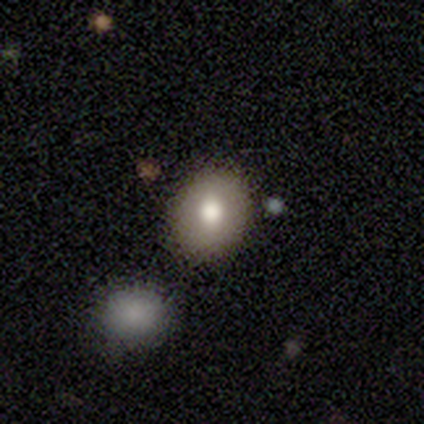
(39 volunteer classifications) This appears to be a smooth galaxy with no disk features (54%) that is round (67%). Merging: none (79%).